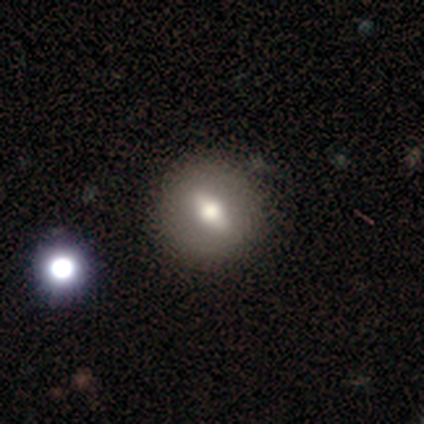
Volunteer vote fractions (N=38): A smooth galaxy with no disk features (55%) that is round (76%).

Vote fractions:
- Smooth or featured? smooth: 55% / featured or disk: 39% / star or artifact: 5%
- How rounded? round: 76% / in between: 19% / cigar-shaped: 5%
- Merging? none: 64% / merger: 8% / minor disturbance: 0% / major disturbance: 0%